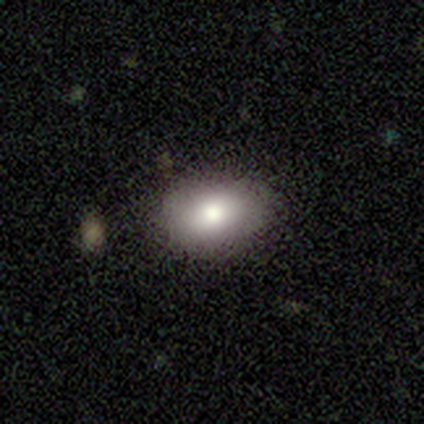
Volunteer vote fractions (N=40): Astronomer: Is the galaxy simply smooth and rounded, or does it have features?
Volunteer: smooth — 80%.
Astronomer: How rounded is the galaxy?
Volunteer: in between — 84%.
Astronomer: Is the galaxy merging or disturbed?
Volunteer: none — 82%.